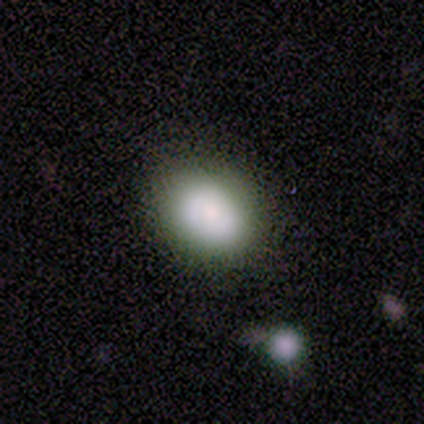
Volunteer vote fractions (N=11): This appears to be a smooth galaxy with no disk features (55%) that is in between round and cigar-shaped (83%). Merging: none (89%).